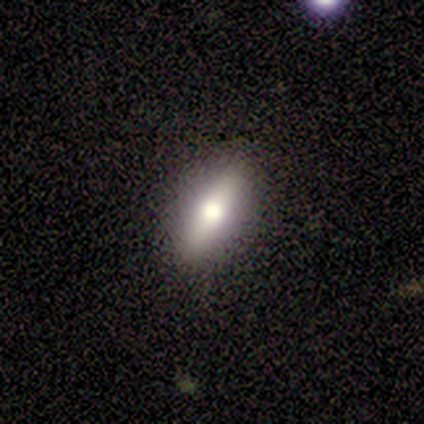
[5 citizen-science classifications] smooth-or-featured: featured or disk: 60% | smooth: 20% | star or artifact: 20%
  disk-edge-on: yes: 100% | no: 0%
    edge-on-bulge: rounded: 67% | boxy: 33% | none: 0%
  merging: none: 75% | minor disturbance: 25% | major disturbance: 0% | merger: 0%